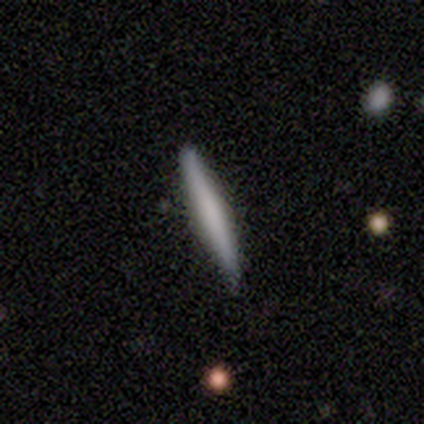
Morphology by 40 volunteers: smooth-or-featured: smooth: 57% | featured or disk: 32% | star or artifact: 10%
  how-rounded: cigar-shaped: 100% | round: 0% | in between: 0%
  merging: none: 92% | minor disturbance: 6% | merger: 3% | major disturbance: 0%